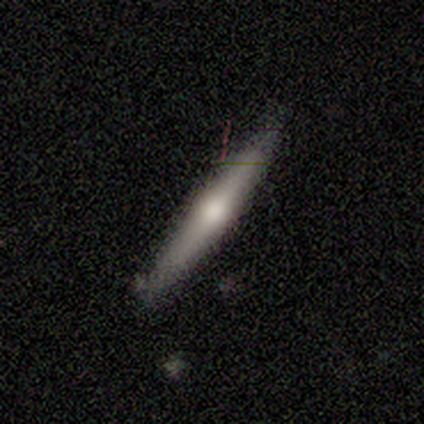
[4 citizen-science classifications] Volunteers were most divided on "smooth or featured": featured or disk: 75%, smooth: 25%, star or artifact: 0%. More confident: edge-on disk — yes (100%); edge-on bulge — rounded (100%); merging — none (100%).